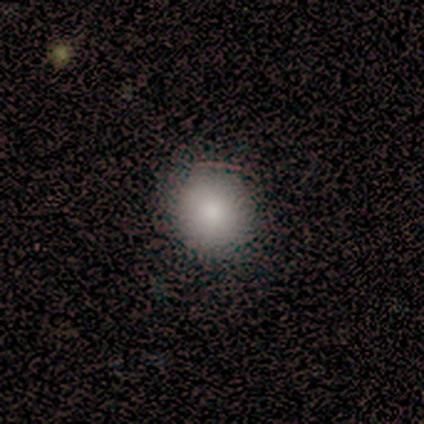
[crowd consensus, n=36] A smooth galaxy with no disk features (86%) that is round (94%).

Vote fractions:
- Smooth or featured? smooth: 86% / featured or disk: 11% / star or artifact: 3%
- How rounded? round: 94% / in between: 6% / cigar-shaped: 0%
- Merging? none: 74% / minor disturbance: 3% / major disturbance: 3% / merger: 0%